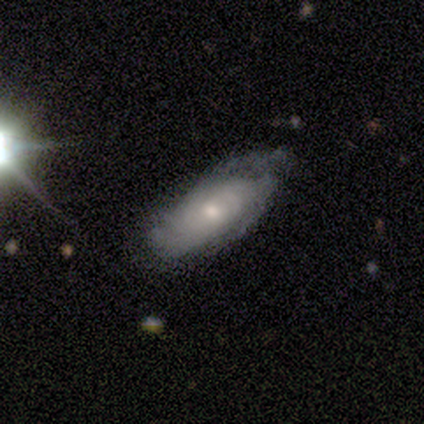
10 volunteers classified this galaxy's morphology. Volunteers were most divided on "merging": none: 70%, minor disturbance: 20%, major disturbance: 10%, merger: 0%. More confident: smooth or featured — featured or disk (100%); edge-on disk — no (100%); bar — no (100%); spiral arm count — can't tell (88%); spiral arms — yes (80%); bulge size — small (80%); spiral winding — tight (75%).